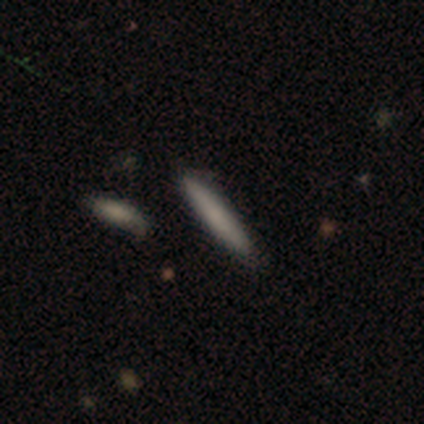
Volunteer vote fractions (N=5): Smooth or featured? smooth (80%)
How rounded? cigar-shaped (75%)
Merging? none (100%)